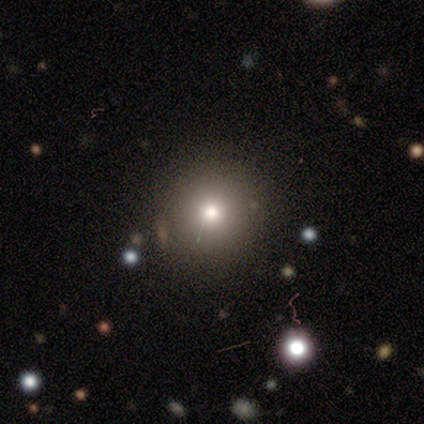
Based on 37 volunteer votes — smooth_or_featured: smooth (p=0.86) [alt: featured or disk p=0.08]
how_rounded: round (p=0.94) [alt: in between p=0.06]
merging: none (p=0.51) [alt: merger p=0.11]